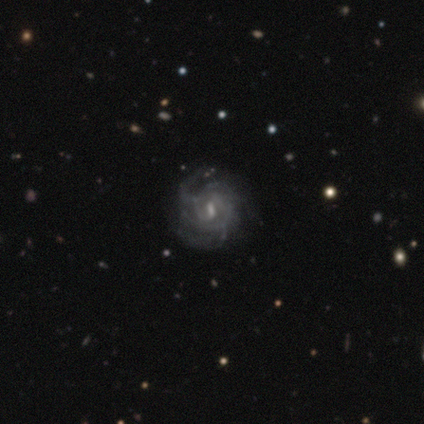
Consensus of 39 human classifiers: Smooth or featured? featured or disk (100%)
Edge-on disk? no (97%)
Bar? weak (50%)
Spiral arms? yes (92%)
Spiral winding? tight (60%)
Spiral arm count? can't tell (46%)
Bulge size? small (37%)
Merging? none (44%)